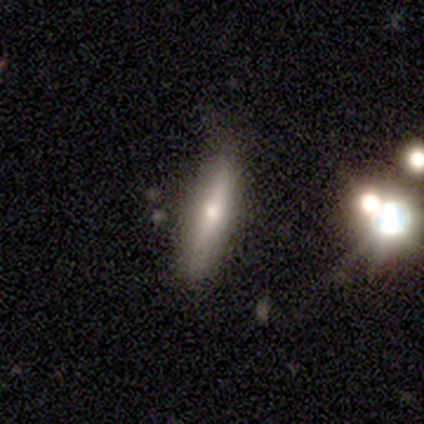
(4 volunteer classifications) A smooth galaxy with no disk features (75%) that is cigar-shaped (67%). Merging: none (100%).